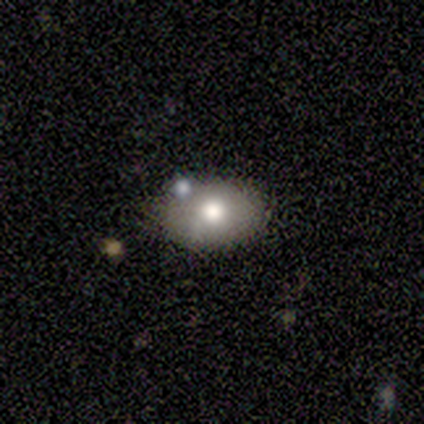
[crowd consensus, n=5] This is clearly a smooth galaxy (80%). How rounded: likely in between (75%). Merging: clearly none (80%).